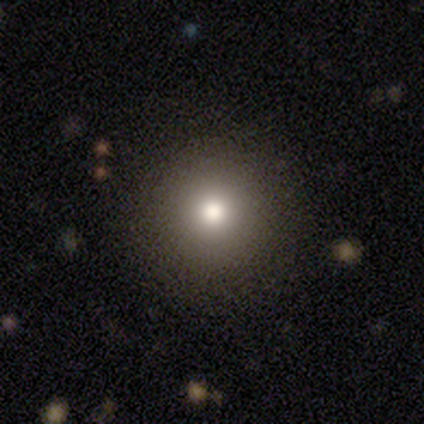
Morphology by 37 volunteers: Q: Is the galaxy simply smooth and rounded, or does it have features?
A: smooth — 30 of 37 (81%).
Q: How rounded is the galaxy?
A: round — 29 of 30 (97%).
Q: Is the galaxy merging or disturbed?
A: none — 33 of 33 (100%).